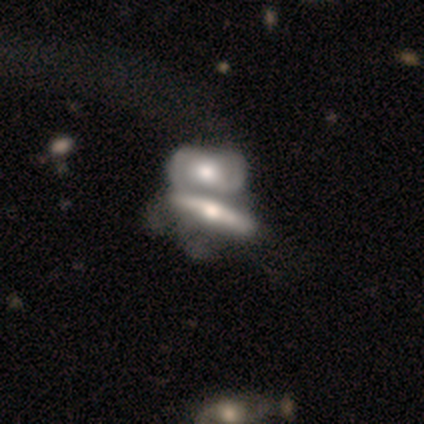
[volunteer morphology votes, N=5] smooth-or-featured: featured or disk: 100% | smooth: 0% | star or artifact: 0%
  disk-edge-on: yes: 80% | no: 20%
    edge-on-bulge: rounded: 75% | boxy: 25% | none: 0%
  merging: merger: 80% | minor disturbance: 20% | none: 0% | major disturbance: 0%